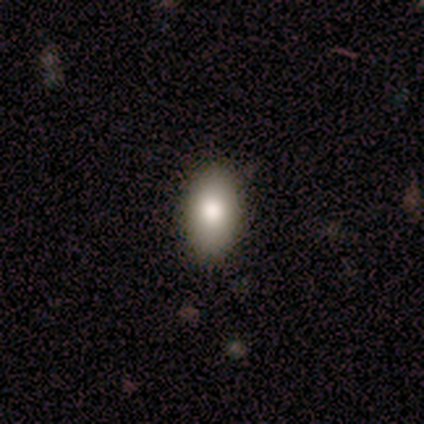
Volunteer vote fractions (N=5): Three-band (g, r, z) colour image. It shows a smooth galaxy with no disk features (60%) that is in between round and cigar-shaped (67%). Merging: none (75%).